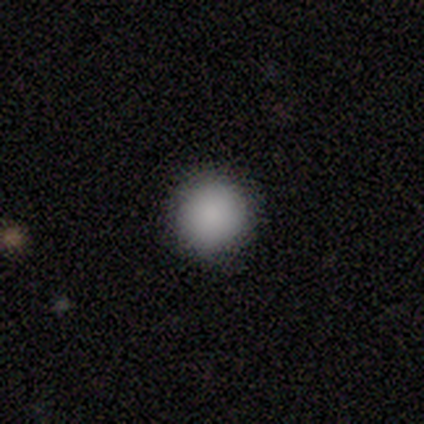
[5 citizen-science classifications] This is clearly a smooth galaxy (80%). How rounded: clearly round (100%). Merging: clearly none (100%).